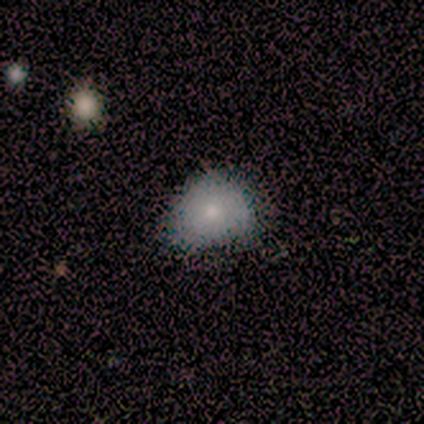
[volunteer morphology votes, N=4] This appears to be a smooth galaxy with no disk features (100%) that is round (75%). Merging: minor disturbance (100%).